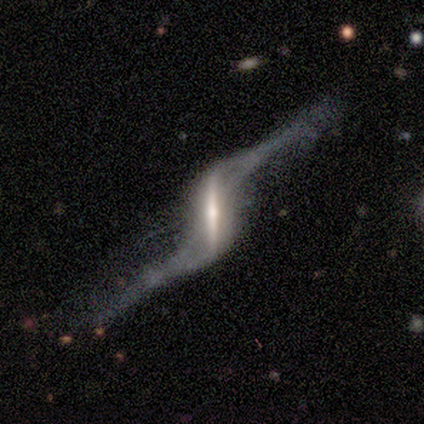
Smooth or featured? featured or disk (93%)
Edge-on disk? no (54%)
Bar? strong (100%)
Spiral arms? yes (86%)
Spiral winding? loose (100%)
Spiral arm count? 2 (100%)
Bulge size? moderate (43%)
Merging? major disturbance (57%)